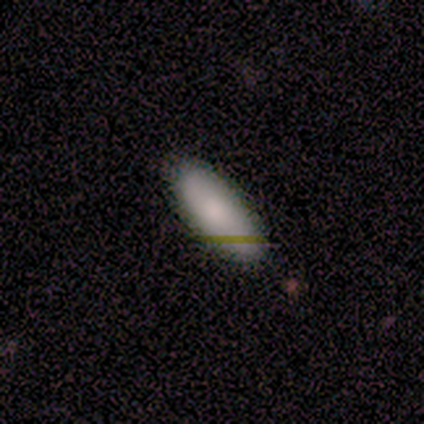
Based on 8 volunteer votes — Smooth or featured?
  - smooth: 100% *
  - featured or disk: 0%
  - star or artifact: 0%
How rounded?
  - in between: 88% *
  - cigar-shaped: 12%
  - round: 0%
Merging?
  - none: 62% *
  - minor disturbance: 25%
  - major disturbance: 12%
  - merger: 0%